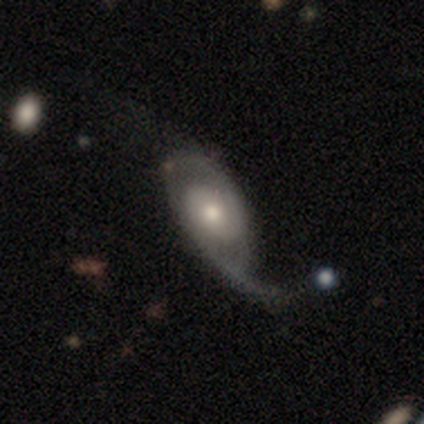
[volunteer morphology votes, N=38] This is likely a featured or disk galaxy (79%). It is clearly not viewed edge-on (100%). Bar: clearly no (83%). Spiral arm pattern: clearly yes (80%). Spiral arm count: likely 2 (67%). Spiral winding: possibly loose (54%). Central bulge: likely moderate (67%). Merging: marginally major disturbance (36%).